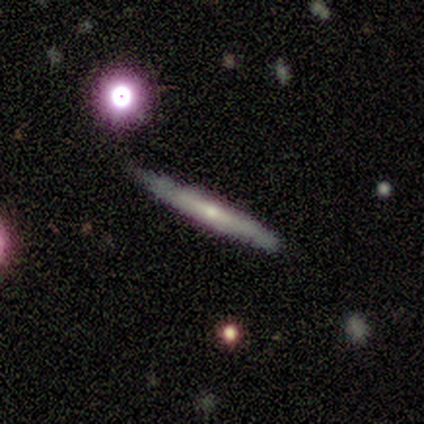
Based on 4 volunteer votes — Smooth or featured? 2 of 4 (50%, tied with featured or disk) said smooth. How rounded? 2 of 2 (100%) said cigar-shaped. Merging? 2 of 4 (50%, tied with minor disturbance) said none.